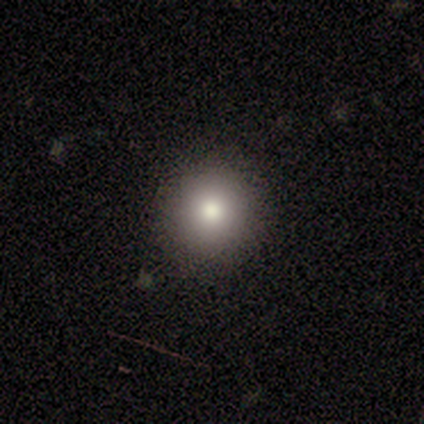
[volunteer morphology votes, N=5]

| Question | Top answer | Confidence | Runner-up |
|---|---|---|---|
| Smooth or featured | smooth | 80% | featured or disk (20%) |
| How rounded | round | 100% | — |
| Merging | none | 100% | — |